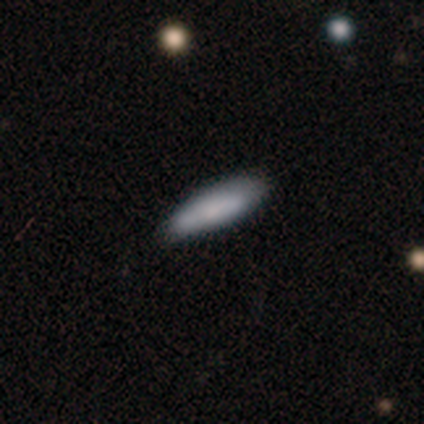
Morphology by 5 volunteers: type=smooth (100%); roundness=in between (80%); merging=none (60%).